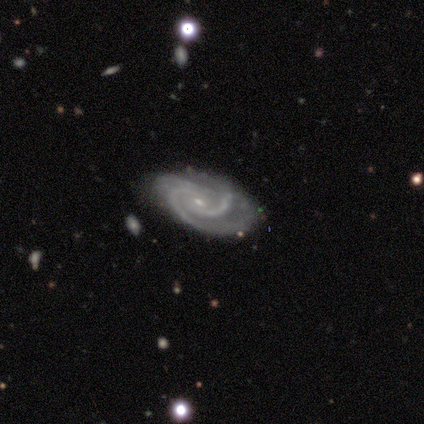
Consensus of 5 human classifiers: smooth-or-featured: featured or disk: 80% | star or artifact: 20% | smooth: 0%
  disk-edge-on: no: 100% | yes: 0%
    bar: weak: 50% | strong: 25% | no: 25%
    has-spiral-arms: yes: 100% | no: 0%
      spiral-winding: tight: 50% (tied) | medium: 50% (tied) | loose: 0%
      spiral-arm-count: 3: 100% | 1: 0% | 2: 0% | 4: 0% | more than 4: 0% | can't tell: 0%
    bulge-size: small: 50% | moderate: 25% | none: 25% | dominant: 0% | large: 0%
  merging: none: 75% | minor disturbance: 25% | major disturbance: 0% | merger: 0%